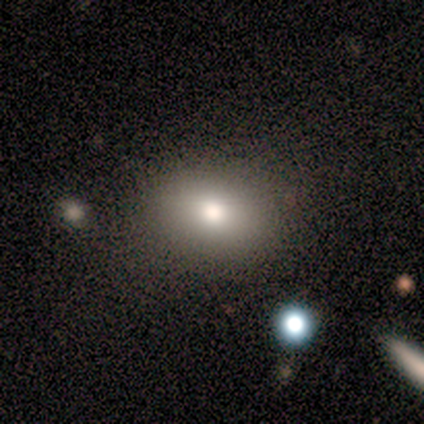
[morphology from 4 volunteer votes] smooth_or_featured: smooth (p=1.00)
how_rounded: in between (p=0.75) [alt: round p=0.25]
merging: none (p=0.75) [alt: minor disturbance p=0.25]